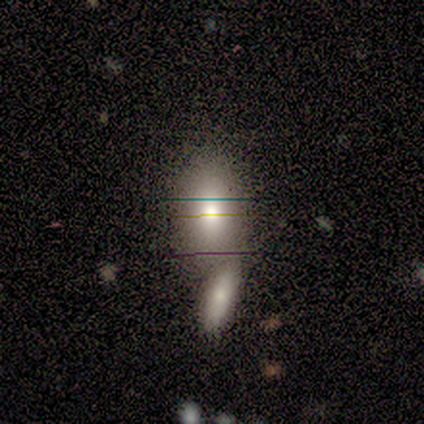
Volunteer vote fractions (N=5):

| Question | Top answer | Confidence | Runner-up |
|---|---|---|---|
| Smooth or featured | smooth | 80% | featured or disk (20%) |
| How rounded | in between | 100% | — |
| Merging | merger | 60% | minor disturbance (20%) |